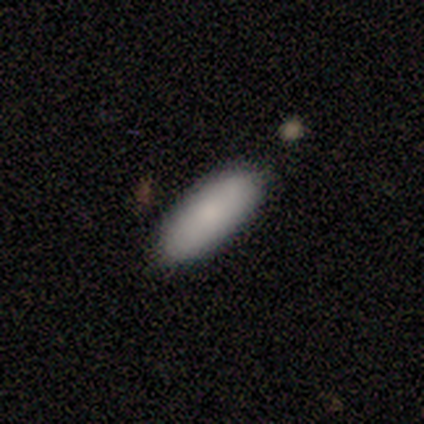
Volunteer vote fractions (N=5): Overall: smooth (100%). How rounded: in between (80%). Merging: none (80%).